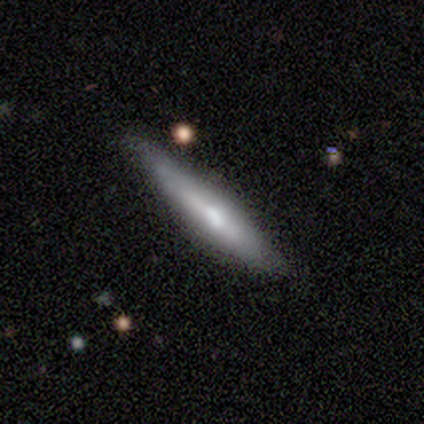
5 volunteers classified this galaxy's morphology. Smooth or featured: featured or disk — 80% (smooth — 20%)
Edge-on disk: yes — 100%
Edge-on bulge: none — 50% (tied with rounded — 50%)
Merging: none — 100%